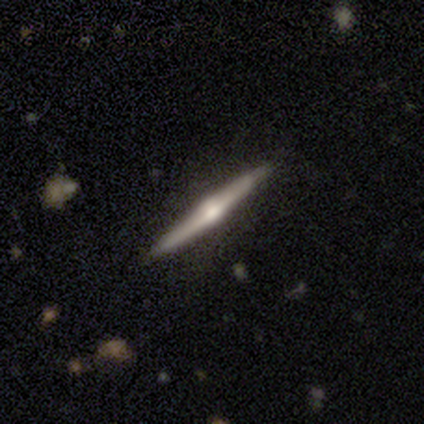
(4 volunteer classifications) smooth_or_featured: featured or disk (p=1.00)
disk_edge_on: yes (p=1.00)
edge_on_bulge: rounded (p=1.00)
merging: none (p=1.00)